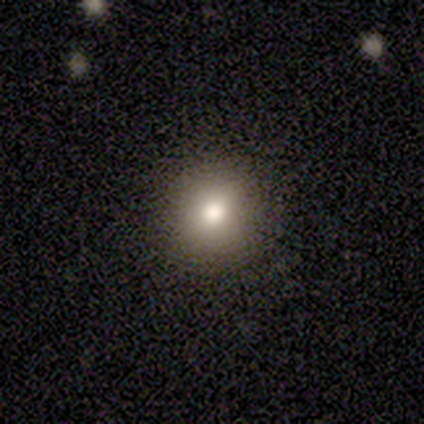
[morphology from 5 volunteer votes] A smooth galaxy with no disk features (80%) that is round (100%). Merging: none (100%).